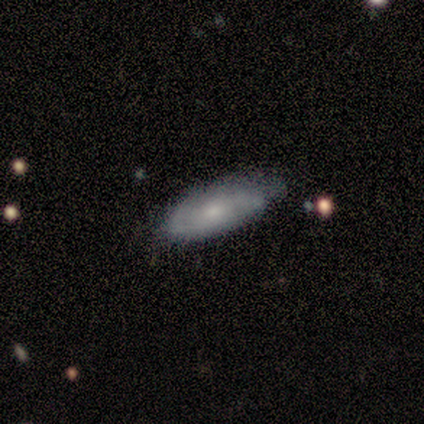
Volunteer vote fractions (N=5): smooth_or_featured: smooth (p=0.60) [alt: featured or disk p=0.40]
how_rounded: in between (p=1.00)
merging: minor disturbance (p=0.60) [alt: none p=0.40]